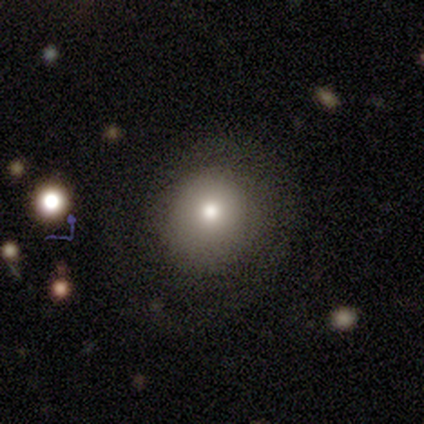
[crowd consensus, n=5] Volunteers were most divided on "smooth or featured": smooth: 60%, featured or disk: 20%, star or artifact: 20%. More confident: how rounded — round (100%); merging — none (75%).